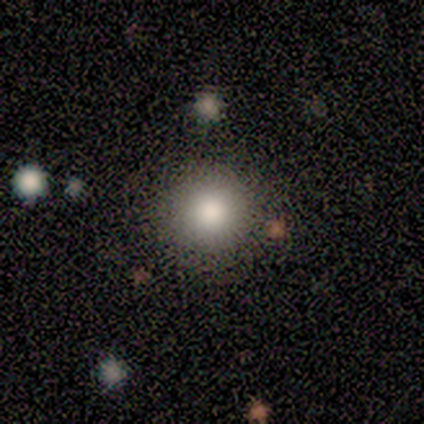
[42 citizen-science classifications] Smooth or featured?
  - smooth: 74% *
  - featured or disk: 14%
  - star or artifact: 12%
How rounded?
  - round: 100% *
  - in between: 0%
  - cigar-shaped: 0%
Merging?
  - none: 84% *
  - minor disturbance: 8%
  - merger: 5%
  - major disturbance: 3%